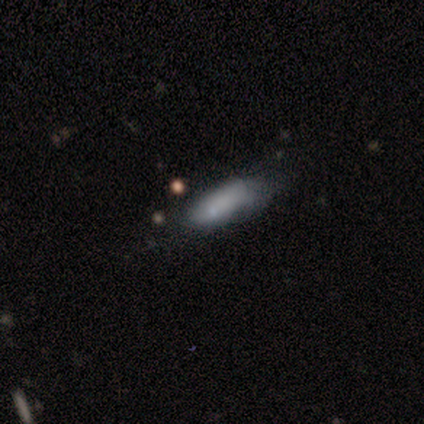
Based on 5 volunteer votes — A smooth galaxy with no disk features (80%) that is in between round and cigar-shaped (100%). Merging: none (40%, tied with major disturbance).